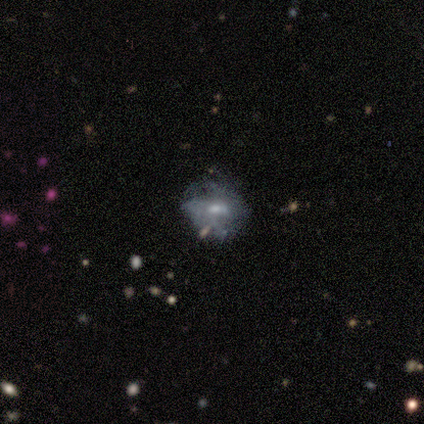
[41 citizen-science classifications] Smooth or featured: featured or disk — 95% (smooth — 5%)
Edge-on disk: no — 100%
Bar: no — 51% (weak — 46%)
Spiral arms: yes — 62% (no — 38%)
Spiral winding: medium — 50% (loose — 38%)
Spiral arm count: 2 — 46% (can't tell — 42%)
Bulge size: moderate — 49% (small — 46%)
Merging: none — 46% (minor disturbance — 27%)